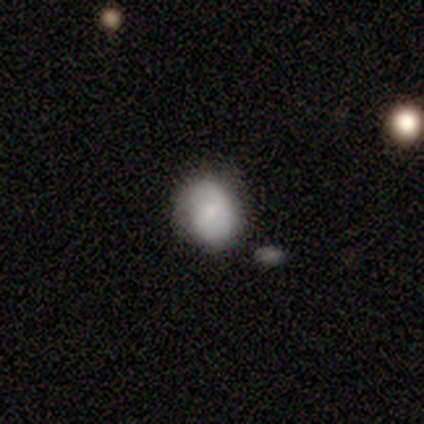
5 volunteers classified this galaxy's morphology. Q: Smooth or featured?
A: smooth (60%); runner-up: featured or disk (40%)
Q: How rounded?
A: in between (100%)
Q: Merging?
A: none (60%); runner-up: minor disturbance (40%)